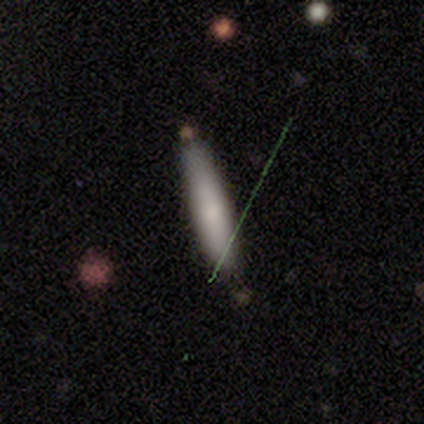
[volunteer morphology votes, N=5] Volunteers were most divided on "smooth or featured": smooth: 60%, featured or disk: 40%, star or artifact: 0%. More confident: how rounded — cigar-shaped (100%); merging — none (80%).